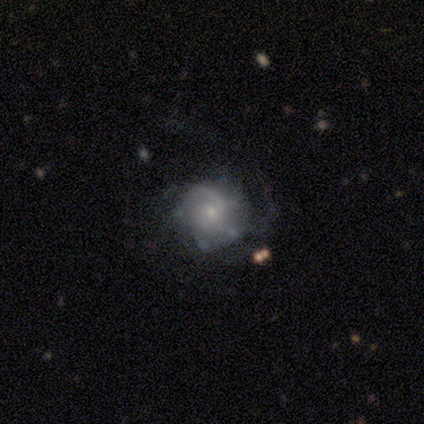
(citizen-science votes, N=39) A featured or disk galaxy (77%) with no bar (73%), medium (42%) spiral arms (87%) and a small central bulge (70%).

Vote fractions:
- Smooth or featured? featured or disk: 77% / smooth: 15% / star or artifact: 8%
- Edge-on disk? no: 100% / yes: 0%
- Bar? no: 73% / weak: 23% / strong: 3%
- Spiral arms? yes: 87% / no: 13%
- Spiral winding? medium: 42% / tight: 31% / loose: 27%
- Spiral arm count? can't tell: 38% / 2: 27% / 1: 12% / 4: 12% / 3: 8% / more than 4: 4%
- Bulge size? small: 70% / moderate: 23% / dominant: 3% / none: 3% / large: 0%
- Merging? none: 69% / major disturbance: 17% / minor disturbance: 14% / merger: 0%